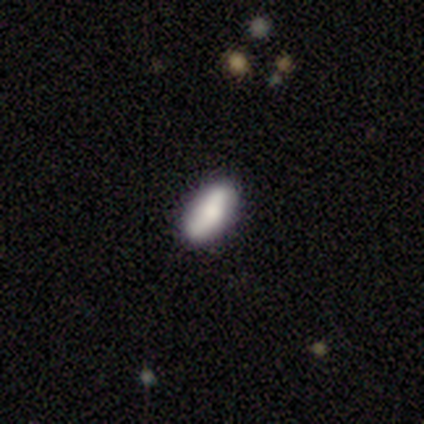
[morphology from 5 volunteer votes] type=smooth (100%); roundness=in between (60%); merging=none (80%).